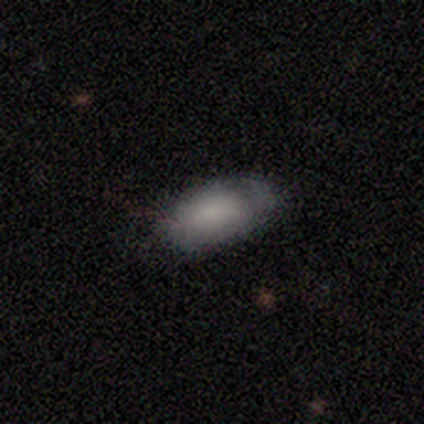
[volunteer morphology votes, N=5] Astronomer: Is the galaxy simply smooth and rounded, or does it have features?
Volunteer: smooth — 100%.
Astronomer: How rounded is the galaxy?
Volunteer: in between — 60% (runner-up: cigar-shaped, 40%).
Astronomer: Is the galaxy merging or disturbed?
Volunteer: none — 80%.